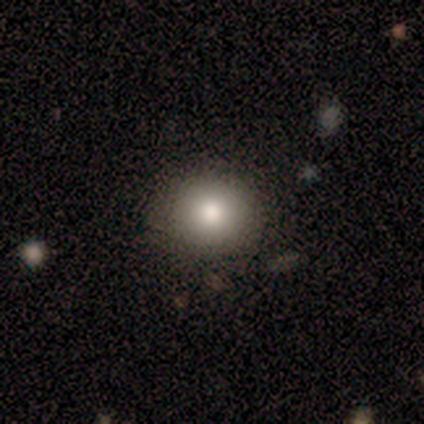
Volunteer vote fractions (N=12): Q: Smooth or featured?
A: smooth (83%); runner-up: featured or disk (8%)
Q: How rounded?
A: round (90%); runner-up: in between (10%)
Q: Merging?
A: none (91%); runner-up: minor disturbance (9%)